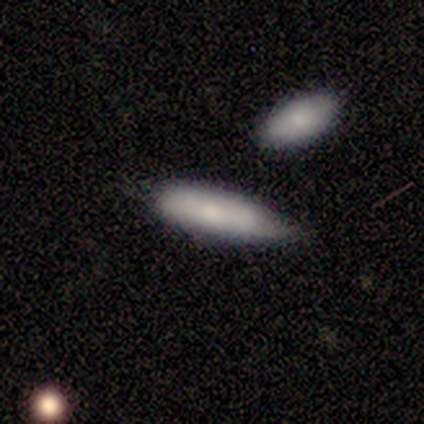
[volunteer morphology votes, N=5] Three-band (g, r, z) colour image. It shows a smooth galaxy with no disk features (60%) that is in between round and cigar-shaped (67%). Merging: minor disturbance (50%).